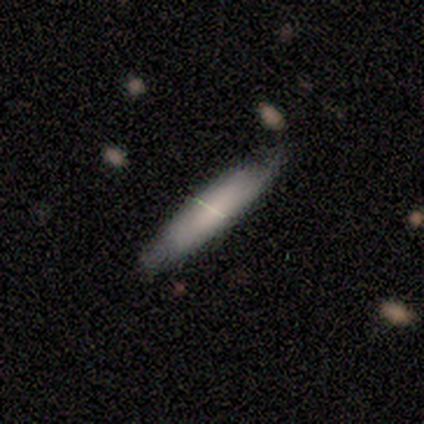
Smooth or featured?
  - smooth: 75% *
  - featured or disk: 25%
  - star or artifact: 0%
How rounded?
  - cigar-shaped: 100% *
  - round: 0%
  - in between: 0%
Merging?
  - none: 75% *
  - minor disturbance: 12%
  - major disturbance: 12%
  - merger: 0%